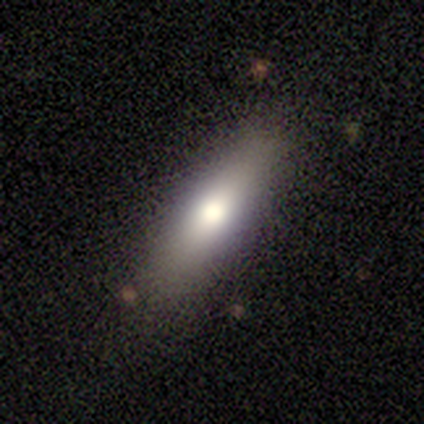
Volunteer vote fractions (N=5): Smooth or featured? 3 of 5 (60%) said smooth. How rounded? 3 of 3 (100%) said in between. Merging? 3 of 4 (75%) said none.